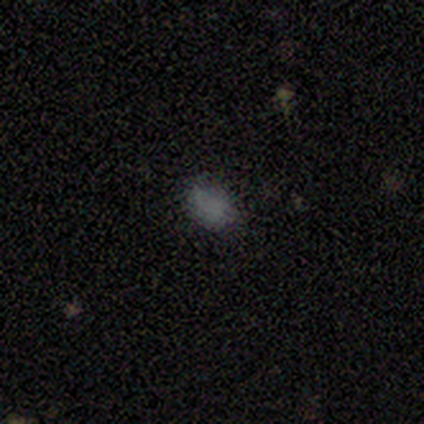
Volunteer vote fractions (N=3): A smooth galaxy with no disk features (100%) that is in between round and cigar-shaped (100%). Merging: none (100%).